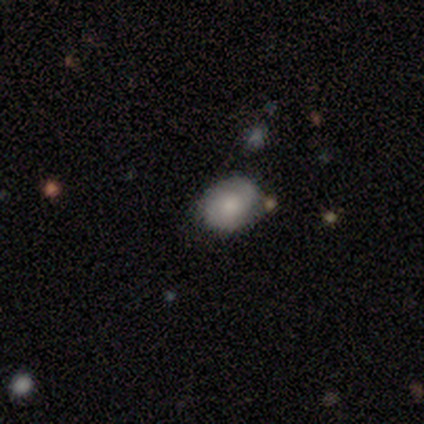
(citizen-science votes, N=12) Smooth or featured: smooth — 67% (featured or disk — 33%)
How rounded: in between — 75% (round — 25%)
Merging: none — 92% (minor disturbance — 8%)